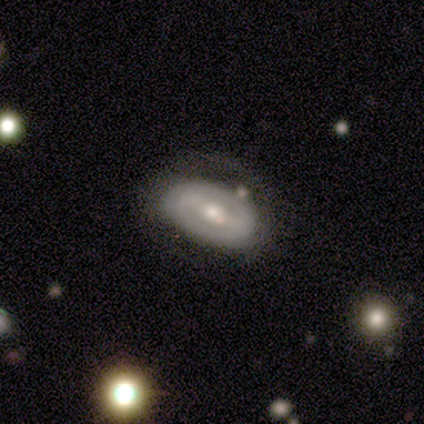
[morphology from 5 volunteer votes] Overall: smooth (40%, tied with featured or disk). How rounded: round (50%, tied with in between). Merging: none (50%; minor disturbance 25%).